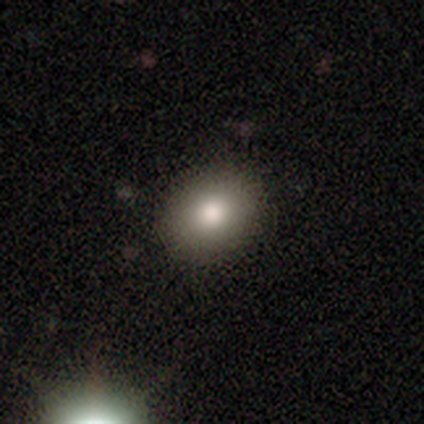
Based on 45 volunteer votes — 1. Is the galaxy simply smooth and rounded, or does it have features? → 89% smooth, 7% star or artifact, 4% featured or disk.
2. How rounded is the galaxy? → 60% round, 40% in between, 0% cigar-shaped.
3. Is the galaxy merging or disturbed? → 88% none, 7% minor disturbance, 5% major disturbance, 0% merger.